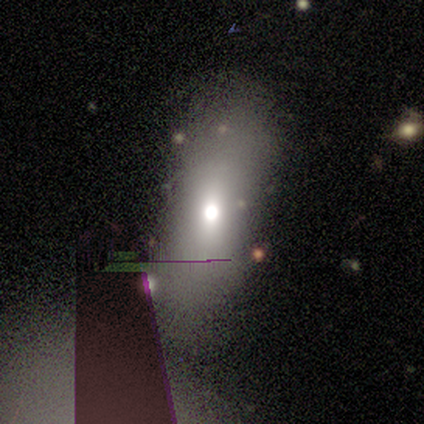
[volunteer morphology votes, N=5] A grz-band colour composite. It shows a smooth galaxy with no disk features (80%) that is in between round and cigar-shaped (75%). Merging: none (75%).